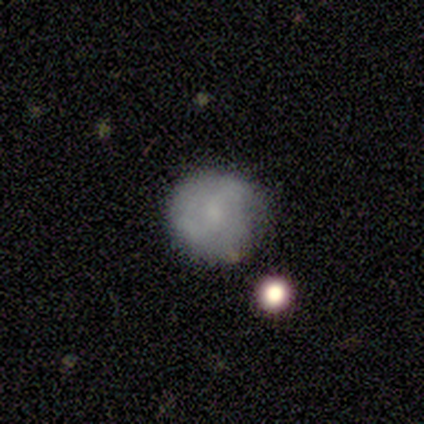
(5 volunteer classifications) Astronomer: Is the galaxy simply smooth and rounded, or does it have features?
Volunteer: smooth — 60% (runner-up: featured or disk, 40%).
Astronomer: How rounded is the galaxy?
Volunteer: round — 100%.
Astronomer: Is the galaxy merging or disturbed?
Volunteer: none — 100%.